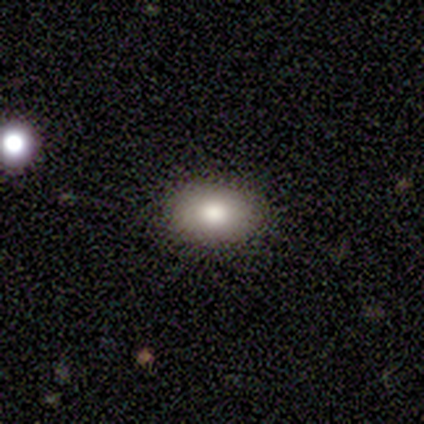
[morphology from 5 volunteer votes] This appears to be a smooth galaxy with no disk features (100%) that is in between round and cigar-shaped (100%). Merging: none (100%).